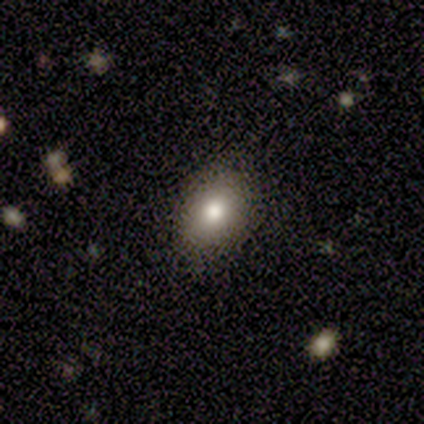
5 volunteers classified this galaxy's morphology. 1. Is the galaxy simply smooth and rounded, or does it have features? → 80% smooth, 20% star or artifact, 0% featured or disk.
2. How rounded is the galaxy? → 50% round (tied), 50% in between (tied), 0% cigar-shaped.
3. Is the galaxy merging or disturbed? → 100% none, 0% minor disturbance, 0% major disturbance, 0% merger.